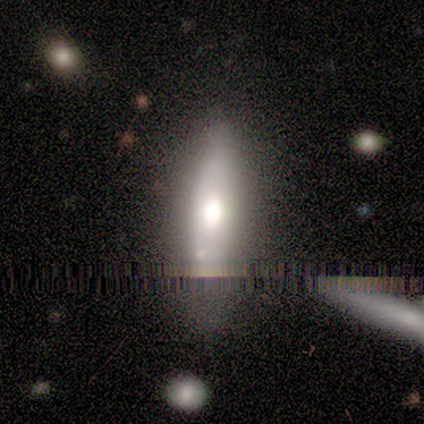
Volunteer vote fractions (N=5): Smooth or featured: smooth — 60% (featured or disk — 20%)
How rounded: in between — 67% (cigar-shaped — 33%)
Merging: none — 75% (minor disturbance — 25%)